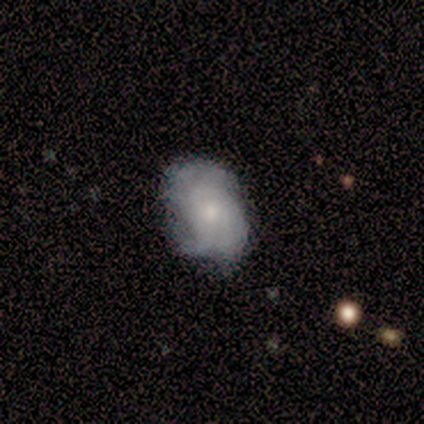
Morphology: type=smooth (60%); roundness=in between (67%); merging=none (60%).